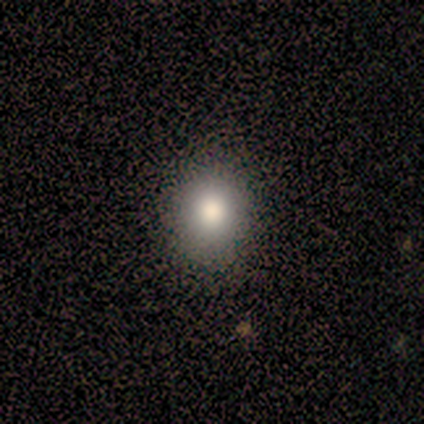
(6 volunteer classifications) Overall: smooth (83%). How rounded: round (60%; in between 40%). Merging: none (100%).